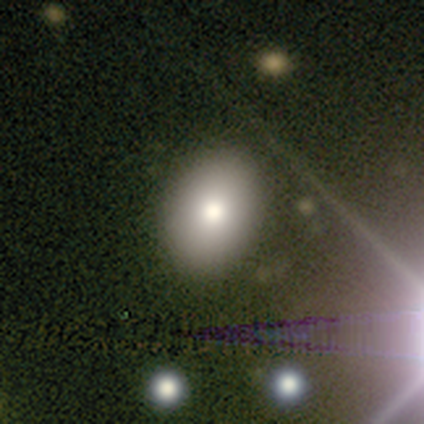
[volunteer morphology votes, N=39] Smooth or featured: smooth — 82% (featured or disk — 10%)
How rounded: in between — 78% (round — 19%)
Merging: none — 89% (minor disturbance — 11%)